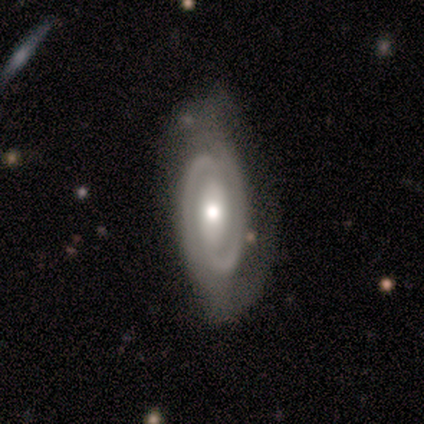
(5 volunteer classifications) Q: Smooth or featured?
A: featured or disk (100%)
Q: Edge-on disk?
A: no (100%)
Q: Bar?
A: weak (80%); runner-up: strong (20%)
Q: Spiral arms?
A: yes (100%)
Q: Spiral winding?
A: tight (60%); runner-up: medium (40%)
Q: Spiral arm count?
A: 2 (100%)
Q: Bulge size?
A: small (60%); runner-up: large (20%)
Q: Merging?
A: none (60%); runner-up: major disturbance (40%)